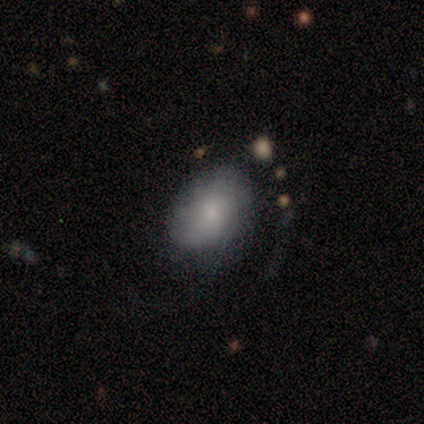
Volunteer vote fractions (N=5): Smooth or featured? 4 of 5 (80%) said smooth. How rounded? 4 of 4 (100%) said in between. Merging? 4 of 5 (80%) said none.